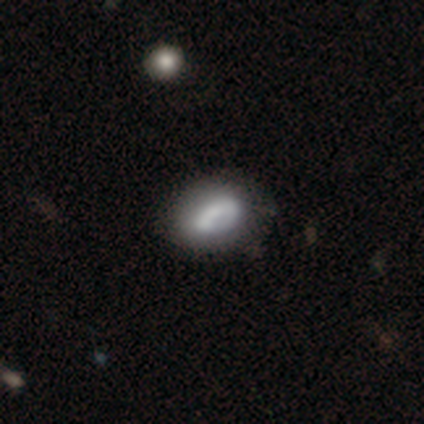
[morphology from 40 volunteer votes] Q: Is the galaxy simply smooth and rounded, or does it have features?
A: smooth — 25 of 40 (62%).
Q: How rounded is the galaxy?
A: in between — 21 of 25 (84%).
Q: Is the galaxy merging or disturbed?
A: minor disturbance — 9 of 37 (24%).